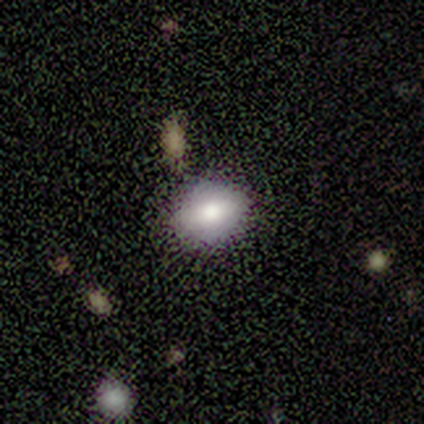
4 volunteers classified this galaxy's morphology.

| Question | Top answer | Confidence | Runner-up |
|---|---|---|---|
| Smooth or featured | smooth | 50% | tied: featured or disk (50%) |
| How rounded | in between | 100% | — |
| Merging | none | 100% | — |